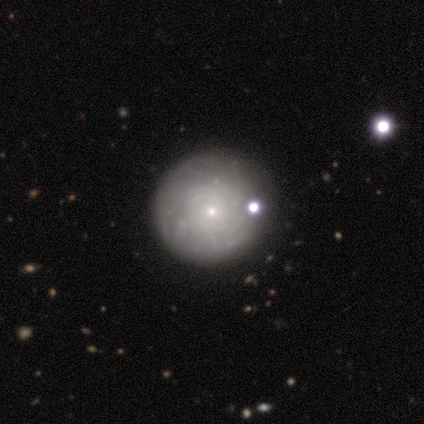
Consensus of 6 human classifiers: A featured or disk galaxy (67%) with no bar (100%), tight (100%) spiral arms (75%) and a moderate central bulge (75%). Merging: none (100%).